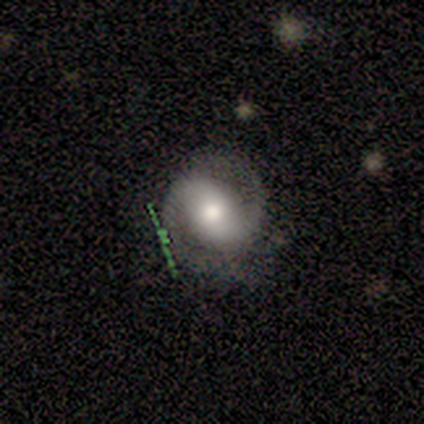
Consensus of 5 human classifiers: This appears to be a featured or disk galaxy (80%) with a strong bar (50%, tied with no), 2 (100%) medium (50%, tied with loose) spiral arms (100%) and a large central bulge (50%, tied with moderate). Merging: none (100%).